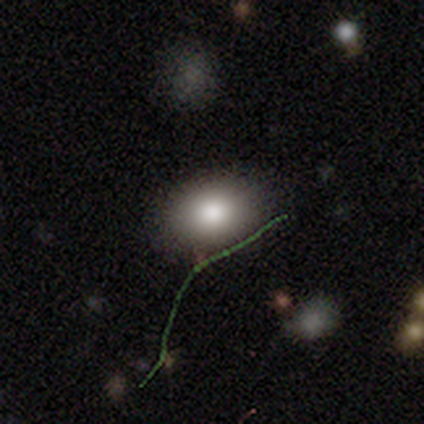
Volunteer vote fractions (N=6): smooth-or-featured: smooth: 83% | featured or disk: 17% | star or artifact: 0%
  how-rounded: in between: 80% | round: 20% | cigar-shaped: 0%
  merging: none: 100% | minor disturbance: 0% | major disturbance: 0% | merger: 0%